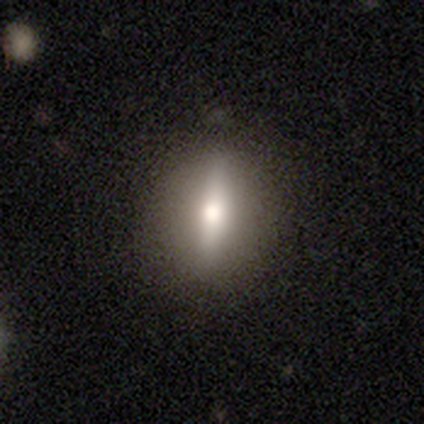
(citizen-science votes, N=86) Smooth or featured? featured or disk (43%)
Edge-on disk? yes (54%)
Edge-on bulge? rounded (95%)
Merging? none (92%)